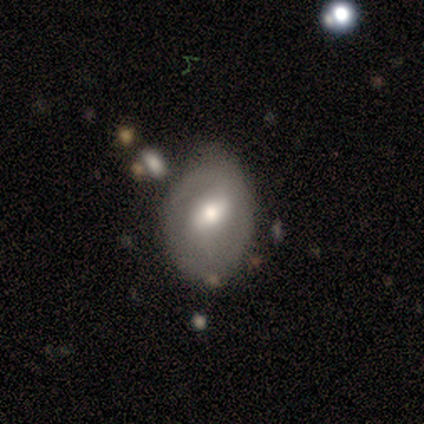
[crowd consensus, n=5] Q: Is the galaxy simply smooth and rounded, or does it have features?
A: featured or disk — 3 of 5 (60%).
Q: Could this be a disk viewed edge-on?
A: no — 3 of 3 (100%).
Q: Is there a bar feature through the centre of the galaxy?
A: weak — 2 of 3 (67%).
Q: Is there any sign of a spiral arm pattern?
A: yes — 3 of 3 (100%).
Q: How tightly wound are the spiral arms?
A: loose — 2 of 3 (67%).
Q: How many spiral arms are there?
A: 2 — 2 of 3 (67%).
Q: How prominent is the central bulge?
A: moderate — 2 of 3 (67%).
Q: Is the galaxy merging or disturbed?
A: none — 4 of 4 (100%).